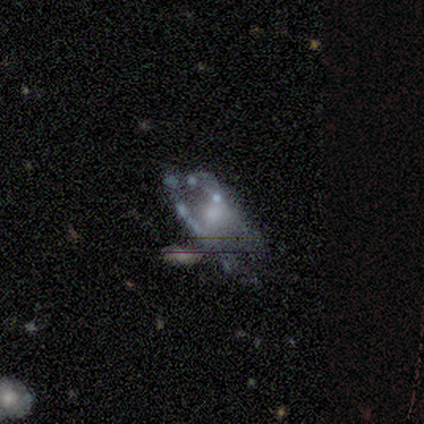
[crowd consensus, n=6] Volunteers were most divided on "bulge size" (2-way tie): small: 40%, none: 40%, moderate: 20%, dominant: 0%, large: 0%. More confident: edge-on disk — no (100%); smooth or featured — featured or disk (83%); bar — no (80%); spiral arms — no (80%); merging — none (80%).